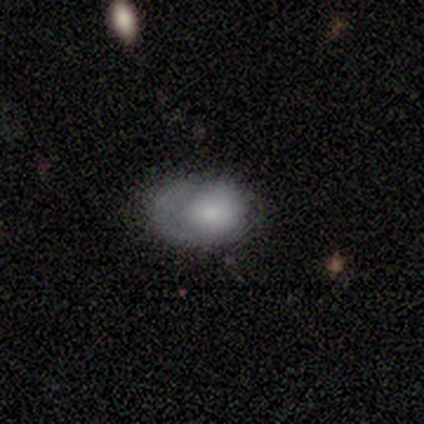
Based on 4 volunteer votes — Smooth or featured?
  - smooth: 50% * (tied)
  - featured or disk: 50% * (tied)
  - star or artifact: 0%
How rounded?
  - in between: 100% *
  - round: 0%
  - cigar-shaped: 0%
Merging?
  - minor disturbance: 50% *
  - none: 25%
  - major disturbance: 25%
  - merger: 0%